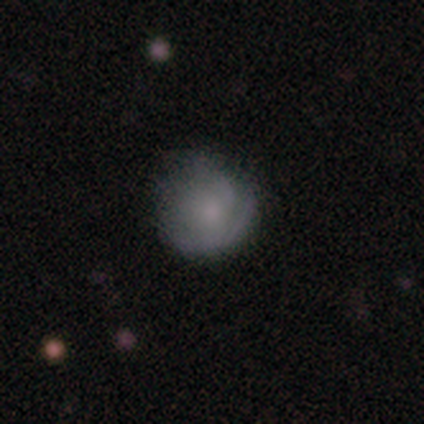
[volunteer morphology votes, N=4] smooth-or-featured: smooth: 50% | featured or disk: 25% | star or artifact: 25%
  how-rounded: round: 100% | in between: 0% | cigar-shaped: 0%
  merging: none: 100% | minor disturbance: 0% | major disturbance: 0% | merger: 0%